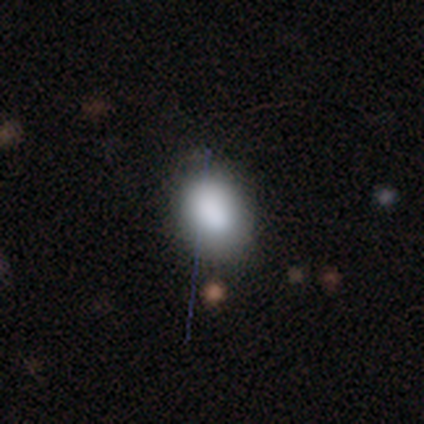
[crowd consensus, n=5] smooth_or_featured: smooth (p=0.80) [alt: star or artifact p=0.20]
how_rounded: round (p=0.50) [tied with: in between p=0.50]
merging: none (p=0.75) [alt: major disturbance p=0.25]